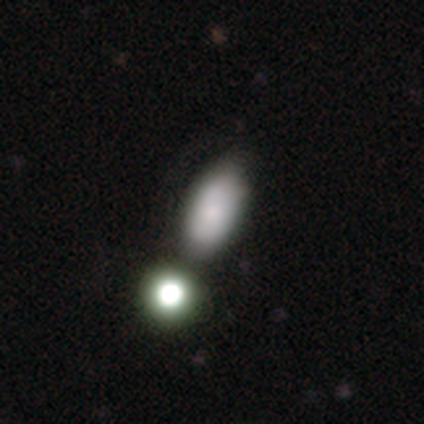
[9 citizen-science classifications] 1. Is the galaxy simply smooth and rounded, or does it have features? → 67% smooth, 33% featured or disk, 0% star or artifact.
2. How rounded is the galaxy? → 100% in between, 0% round, 0% cigar-shaped.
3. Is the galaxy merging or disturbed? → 56% none, 33% minor disturbance, 11% merger, 0% major disturbance.